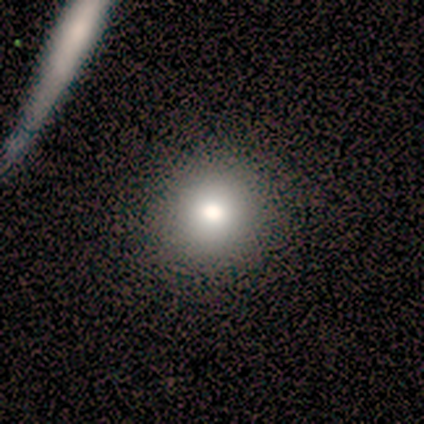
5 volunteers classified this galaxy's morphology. This is likely a star or artifact rather than a galaxy (60%).